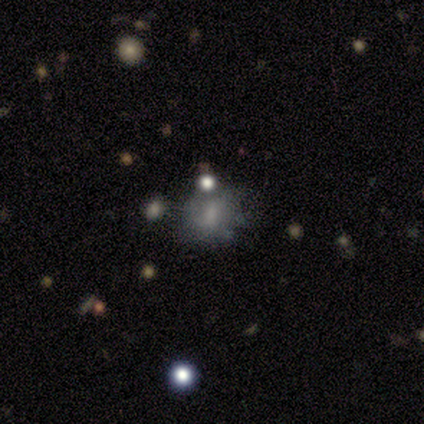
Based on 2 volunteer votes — Smooth or featured: smooth — 100%
How rounded: round — 50% (tied with in between — 50%)
Merging: none — 50% (tied with minor disturbance — 50%)